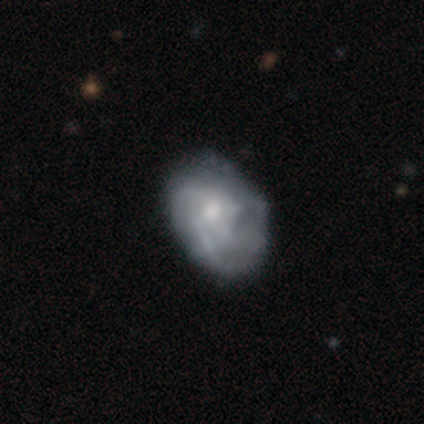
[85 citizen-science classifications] A featured or disk galaxy (58%) with no bar (73%), tight (50%) spiral arms (71%) and a small central bulge (52%). Merging: none (67%).